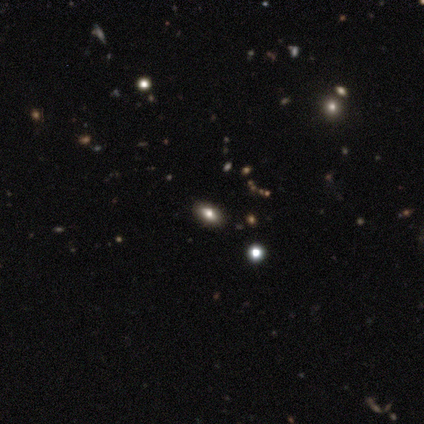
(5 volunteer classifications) Smooth or featured?
  - smooth: 60% *
  - featured or disk: 20%
  - star or artifact: 20%
How rounded?
  - in between: 67% *
  - cigar-shaped: 33%
  - round: 0%
Merging?
  - none: 100% *
  - minor disturbance: 0%
  - major disturbance: 0%
  - merger: 0%